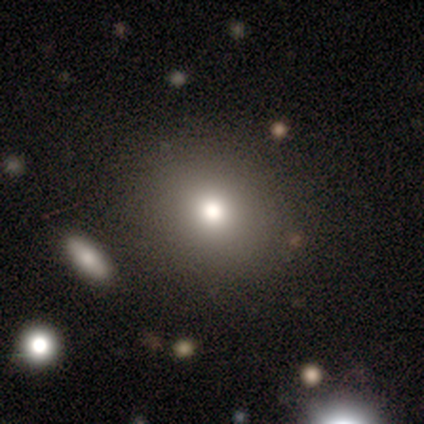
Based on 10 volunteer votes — A smooth galaxy with no disk features (80%) that is round (88%).

Vote fractions:
- Smooth or featured? smooth: 80% / featured or disk: 20% / star or artifact: 0%
- How rounded? round: 88% / in between: 12% / cigar-shaped: 0%
- Merging? none: 70% / major disturbance: 20% / minor disturbance: 10% / merger: 0%